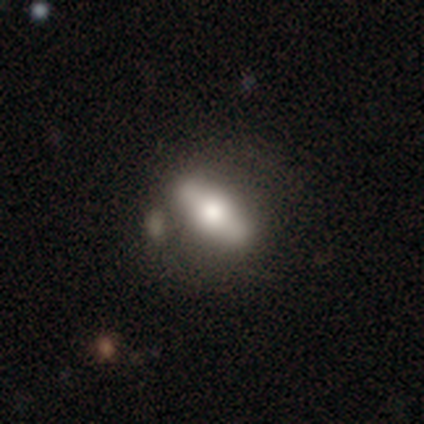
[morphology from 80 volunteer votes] smooth-or-featured: smooth: 59% | featured or disk: 36% | star or artifact: 5%
  how-rounded: in between: 57% | cigar-shaped: 36% | round: 6%
  merging: none: 32% | merger: 21% | minor disturbance: 9% | major disturbance: 1%